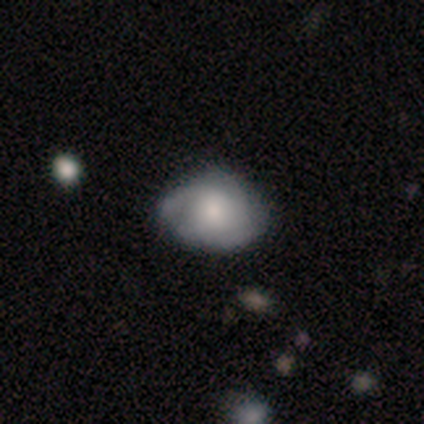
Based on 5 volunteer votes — A featured or disk galaxy (60%) with no bar (67%), no spiral arms (67%) and a moderate central bulge (67%).

Vote fractions:
- Smooth or featured? featured or disk: 60% / smooth: 40% / star or artifact: 0%
- Edge-on disk? no: 100% / yes: 0%
- Bar? no: 67% / weak: 33% / strong: 0%
- Spiral arms? no: 67% / yes: 33%
- Bulge size? moderate: 67% / small: 33% / dominant: 0% / large: 0% / none: 0%
- Merging? none: 80% / minor disturbance: 20% / major disturbance: 0% / merger: 0%